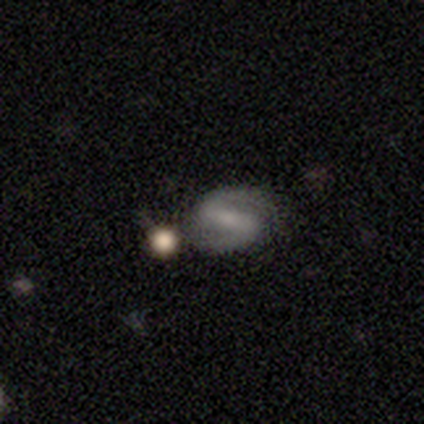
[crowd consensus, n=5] smooth_or_featured: featured or disk (p=0.80) [alt: smooth p=0.20]
disk_edge_on: no (p=1.00)
bar: strong (p=0.75) [alt: weak p=0.25]
has_spiral_arms: yes (p=1.00)
spiral_winding: medium (p=0.50) [alt: tight p=0.25]
spiral_arm_count: 2 (p=0.75) [alt: 1 p=0.25]
bulge_size: none (p=0.50) [alt: moderate p=0.25]
merging: none (p=0.80) [alt: major disturbance p=0.20]